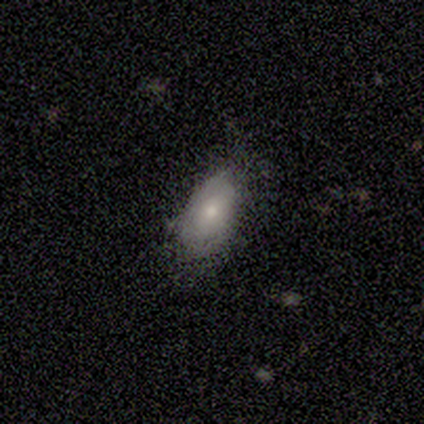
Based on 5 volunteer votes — Overall: smooth (60%; featured or disk 20%). How rounded: in between (100%). Merging: none (75%).